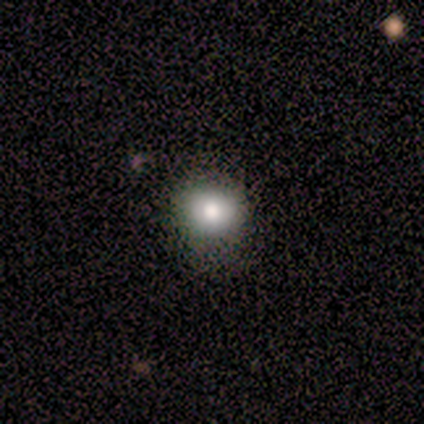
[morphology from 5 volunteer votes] Smooth or featured? smooth (80%)
How rounded? round (100%)
Merging? none (80%)